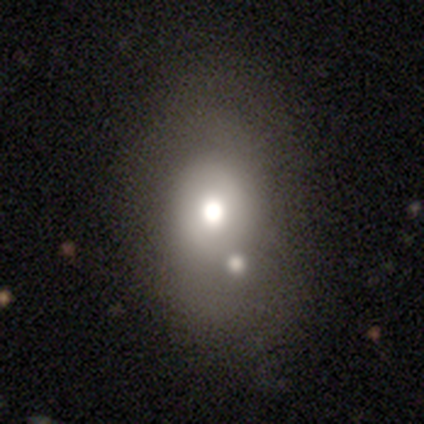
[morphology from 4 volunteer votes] This is possibly a smooth galaxy (50%, tied with featured or disk). How rounded: possibly round (50%, tied with in between). Merging: possibly merger (50%).